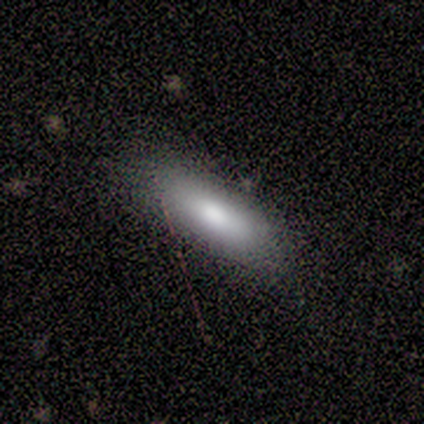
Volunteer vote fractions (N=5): Morphology: type=smooth (100%); roundness=in between (60%); merging=none (100%).